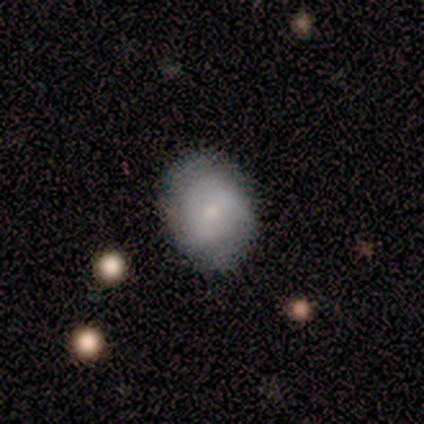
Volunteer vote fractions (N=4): Q: Smooth or featured?
A: smooth (50%); tied with: featured or disk (50%)
Q: How rounded?
A: round (50%); tied with: in between (50%)
Q: Merging?
A: none (50%); tied with: minor disturbance (50%)